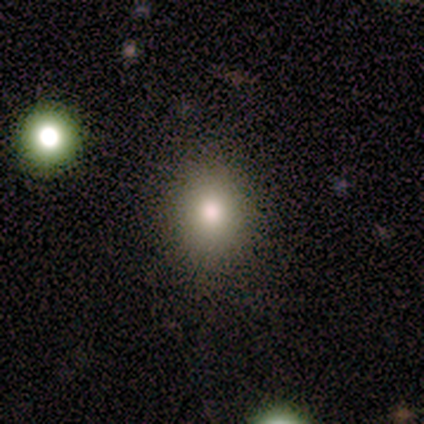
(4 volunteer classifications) Smooth or featured? 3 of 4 (75%) said smooth. How rounded? 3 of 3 (100%) said in between. Merging? 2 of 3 (67%) said none.